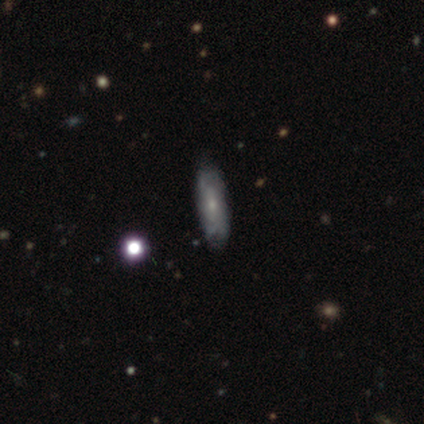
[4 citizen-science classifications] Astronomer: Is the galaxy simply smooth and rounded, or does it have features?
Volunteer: smooth — 50%, tied with featured or disk at 50%.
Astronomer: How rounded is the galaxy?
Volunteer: in between — 100%.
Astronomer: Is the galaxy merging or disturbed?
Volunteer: none — 100%.